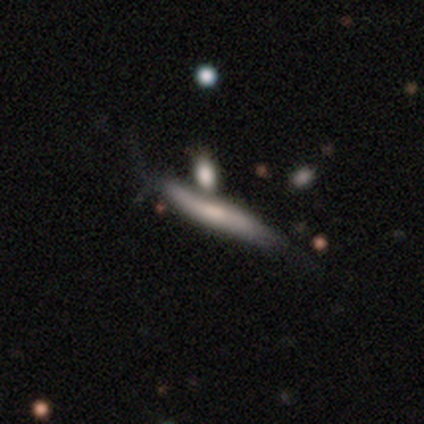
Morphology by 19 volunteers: This is possibly a smooth galaxy (53%). How rounded: clearly cigar-shaped (90%). Merging: marginally none (38%).